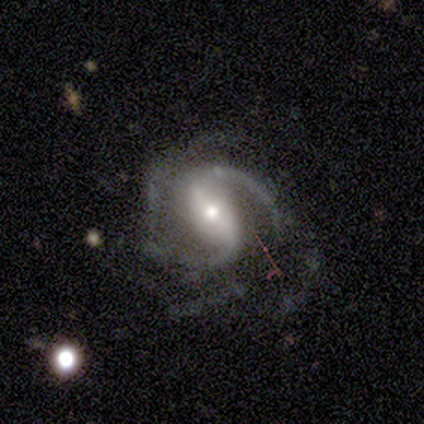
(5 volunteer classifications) Smooth or featured: featured or disk — 100%
Edge-on disk: no — 100%
Bar: strong — 80% (weak — 20%)
Spiral arms: yes — 100%
Spiral winding: medium — 80% (loose — 20%)
Spiral arm count: 2 — 80% (can't tell — 20%)
Bulge size: large — 60% (moderate — 40%)
Merging: none — 40% (tied with minor disturbance — 40%)